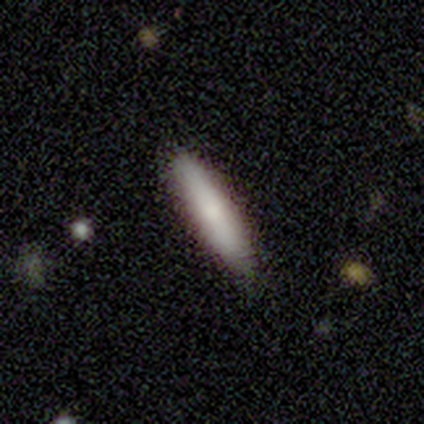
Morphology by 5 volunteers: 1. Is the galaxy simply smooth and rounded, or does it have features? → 80% smooth, 20% featured or disk, 0% star or artifact.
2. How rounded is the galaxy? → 75% cigar-shaped, 25% in between, 0% round.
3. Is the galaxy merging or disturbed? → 100% none, 0% minor disturbance, 0% major disturbance, 0% merger.